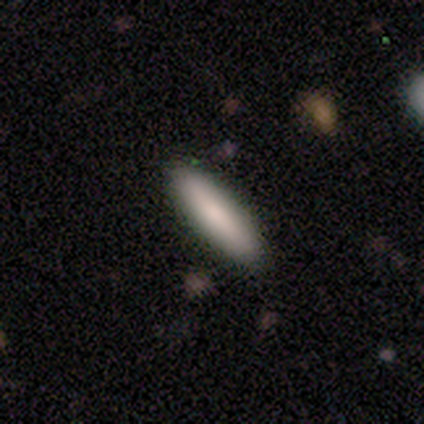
smooth_or_featured: smooth (p=0.92) [alt: featured or disk p=0.08]
how_rounded: cigar-shaped (p=0.76) [alt: in between p=0.24]
merging: none (p=0.96) [alt: minor disturbance p=0.02]